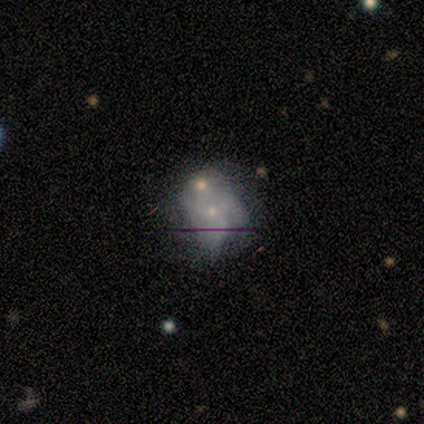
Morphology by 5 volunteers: Q: Smooth or featured?
A: featured or disk (60%); runner-up: smooth (20%)
Q: Edge-on disk?
A: no (100%)
Q: Bar?
A: no (67%); runner-up: weak (33%)
Q: Spiral arms?
A: yes (67%); runner-up: no (33%)
Q: Spiral winding?
A: tight (50%); tied with: loose (50%)
Q: Spiral arm count?
A: 4 (50%); tied with: can't tell (50%)
Q: Bulge size?
A: small (100%)
Q: Merging?
A: none (50%); runner-up: minor disturbance (25%)